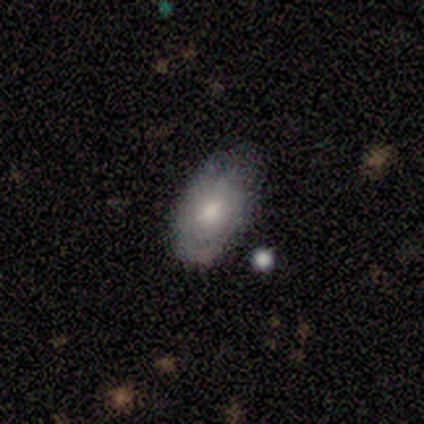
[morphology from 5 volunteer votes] This is likely a smooth galaxy (60%). How rounded: clearly in between (100%). Merging: likely none (60%).